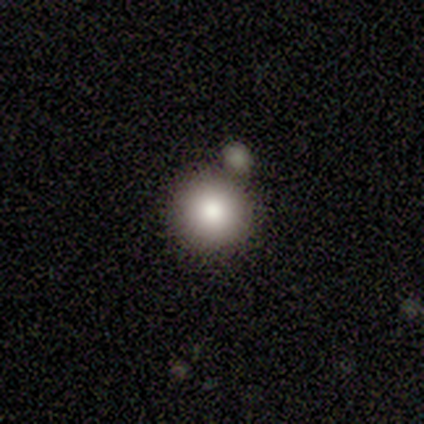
Volunteers were most divided on "smooth or featured": smooth: 64%, star or artifact: 36%, featured or disk: 0%. More confident: how rounded — round (100%); merging — none (71%).